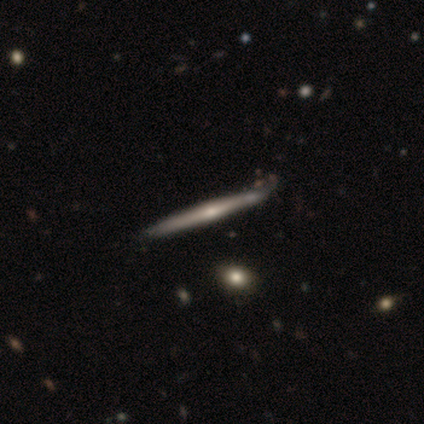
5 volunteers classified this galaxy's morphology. smooth-or-featured: featured or disk: 80% | smooth: 20% | star or artifact: 0%
  disk-edge-on: yes: 100% | no: 0%
    edge-on-bulge: rounded: 75% | none: 25% | boxy: 0%
  merging: none: 100% | minor disturbance: 0% | major disturbance: 0% | merger: 0%